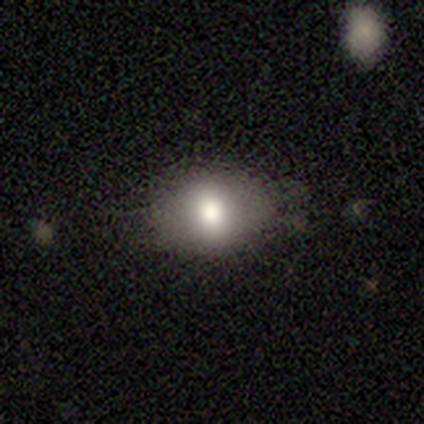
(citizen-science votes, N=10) This appears to be a smooth galaxy with no disk features (70%) that is in between round and cigar-shaped (71%). Merging: none (75%).